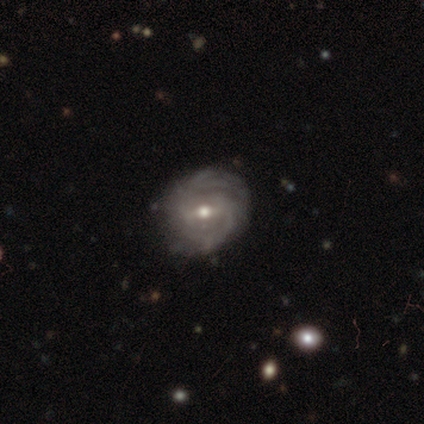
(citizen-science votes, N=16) smooth_or_featured: featured or disk (p=0.88) [alt: smooth p=0.12]
disk_edge_on: no (p=1.00)
bar: weak (p=0.64) [alt: no p=0.21]
has_spiral_arms: yes (p=1.00)
spiral_winding: tight (p=0.64) [alt: medium p=0.29]
spiral_arm_count: 2 (p=0.50) [alt: can't tell p=0.36]
bulge_size: moderate (p=0.79) [alt: small p=0.21]
merging: none (p=0.88) [alt: minor disturbance p=0.12]